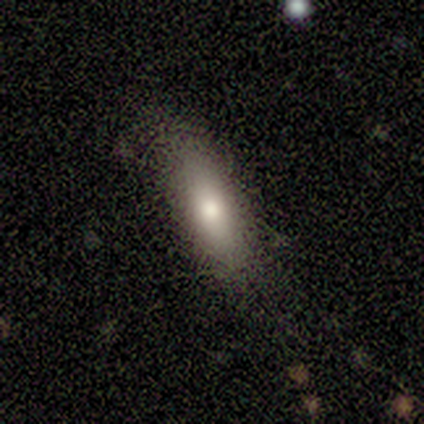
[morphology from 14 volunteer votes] This is likely a smooth galaxy (71%). How rounded: likely in between (60%). Merging: clearly none (100%).